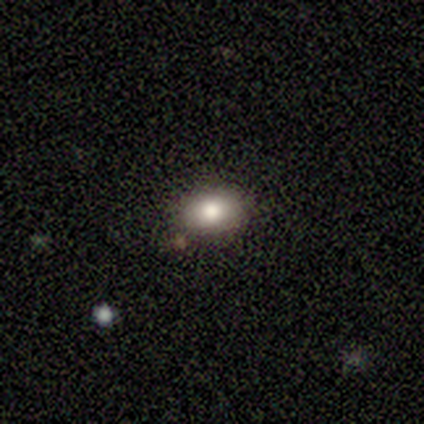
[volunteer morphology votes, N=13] Smooth or featured: smooth — 92% (featured or disk — 8%)
How rounded: in between — 75% (round — 25%)
Merging: none — 92% (minor disturbance — 8%)